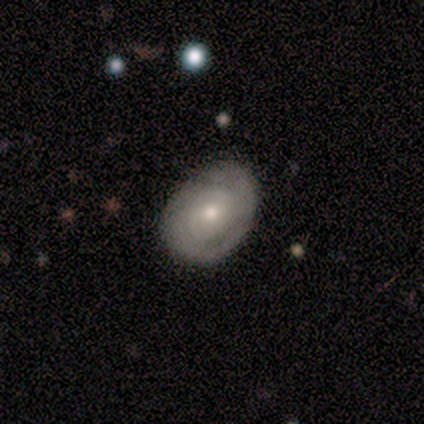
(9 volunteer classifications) smooth-or-featured: smooth: 56% | featured or disk: 44% | star or artifact: 0%
  how-rounded: in between: 80% | round: 20% | cigar-shaped: 0%
  merging: none: 56% | minor disturbance: 33% | major disturbance: 11% | merger: 0%